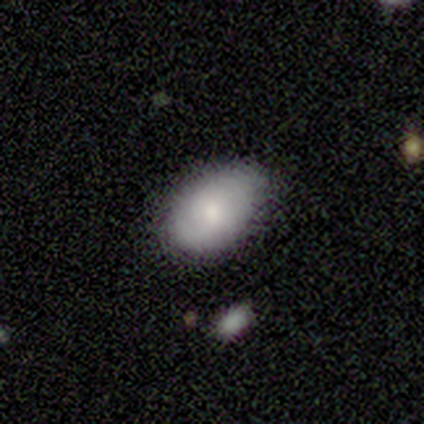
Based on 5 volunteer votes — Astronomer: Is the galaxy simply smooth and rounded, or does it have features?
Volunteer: smooth — 60% (runner-up: star or artifact, 40%).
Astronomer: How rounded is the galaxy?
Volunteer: in between — 100%.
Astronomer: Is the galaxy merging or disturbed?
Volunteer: minor disturbance — 67%.